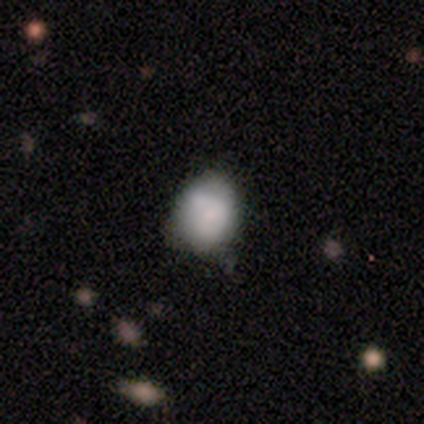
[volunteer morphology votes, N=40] type=smooth (75%); roundness=round (63%); merging=none (35%).